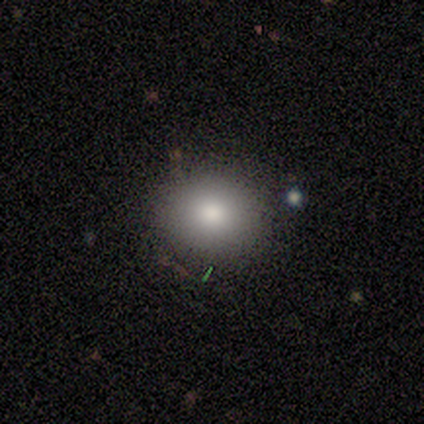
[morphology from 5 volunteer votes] Smooth or featured? 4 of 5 (80%) said smooth. How rounded? 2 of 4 (50%, tied with in between) said round. Merging? 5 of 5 (100%) said none.